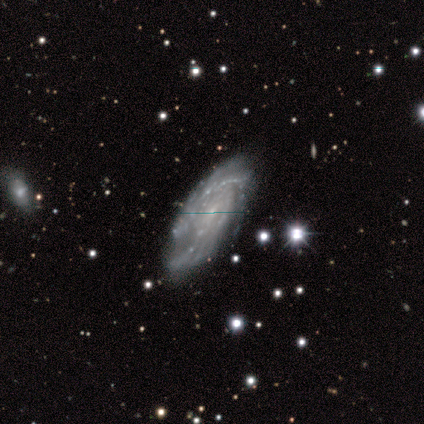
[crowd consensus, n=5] Overall: featured or disk (100%). Edge-on disk: no (80%). Bar: weak (50%, tied with no). Spiral arms: yes (75%). Spiral arm count: 3 (33%, tied with more than 4 and can't tell). Spiral winding: tight (100%). Bulge size: small (75%). Merging: none (80%).